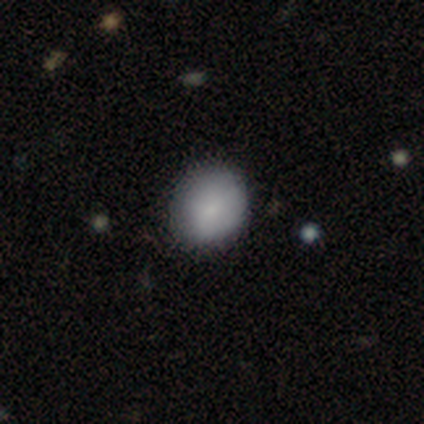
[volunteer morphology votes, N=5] Overall: smooth (100%). How rounded: round (100%). Merging: none (100%).